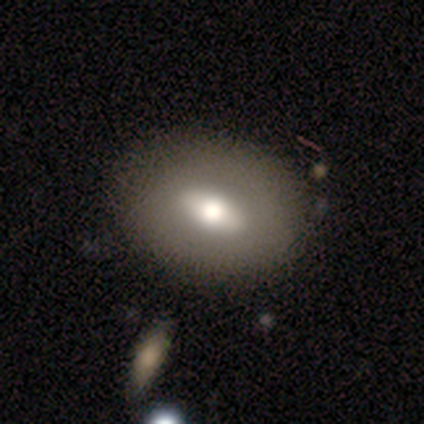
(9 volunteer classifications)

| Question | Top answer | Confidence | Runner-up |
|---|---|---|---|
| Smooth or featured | smooth | 56% | featured or disk (44%) |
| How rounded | in between | 80% | round (20%) |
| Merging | none | 78% | minor disturbance (11%) |